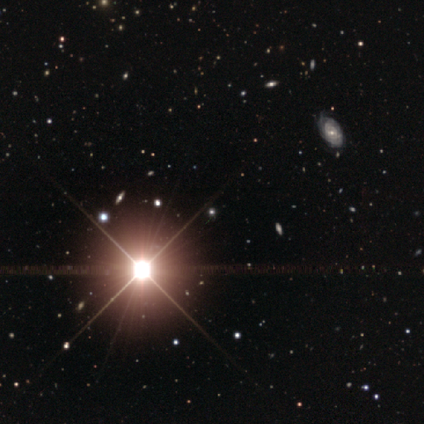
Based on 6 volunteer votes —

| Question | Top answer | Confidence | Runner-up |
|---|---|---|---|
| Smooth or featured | star or artifact | 100% | — |